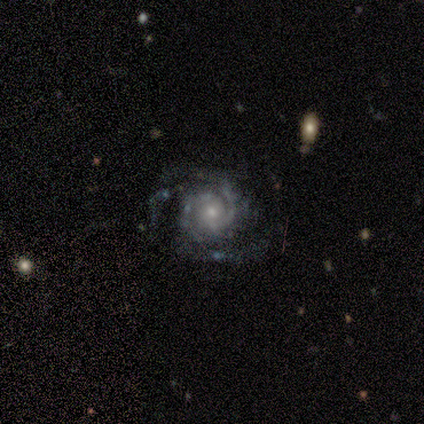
Overall: featured or disk (100%). Edge-on disk: no (80%). Bar: no (50%; strong 25%). Spiral arms: yes (100%). Spiral arm count: 2 (75%). Spiral winding: tight (50%; medium 25%). Bulge size: moderate (50%, tied with small). Merging: none (60%; minor disturbance 20%).